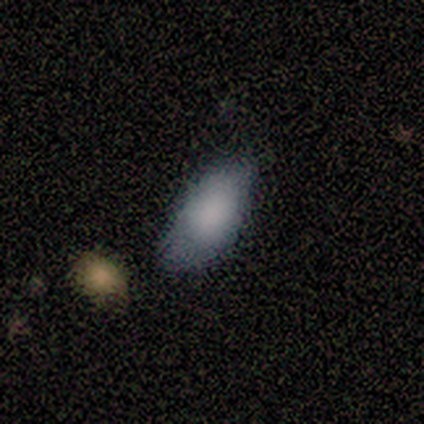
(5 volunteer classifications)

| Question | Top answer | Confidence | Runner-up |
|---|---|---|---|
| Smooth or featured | smooth | 80% | featured or disk (20%) |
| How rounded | in between | 100% | — |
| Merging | none | 80% | minor disturbance (20%) |